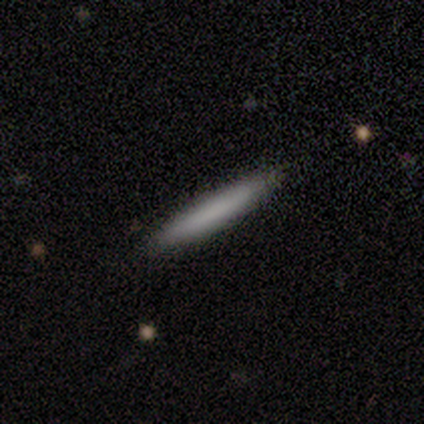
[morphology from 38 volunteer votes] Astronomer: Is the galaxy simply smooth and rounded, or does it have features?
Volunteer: smooth — 79%.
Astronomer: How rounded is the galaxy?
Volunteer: cigar-shaped — 93%.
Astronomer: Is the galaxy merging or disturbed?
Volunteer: none — 78%.